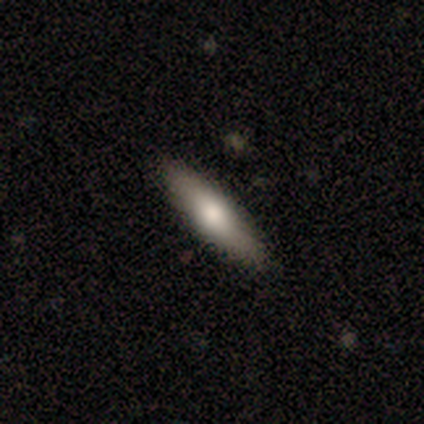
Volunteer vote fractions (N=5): Smooth or featured?
  - smooth: 60% *
  - featured or disk: 40%
  - star or artifact: 0%
How rounded?
  - cigar-shaped: 67% *
  - in between: 33%
  - round: 0%
Merging?
  - none: 80% *
  - major disturbance: 20%
  - minor disturbance: 0%
  - merger: 0%